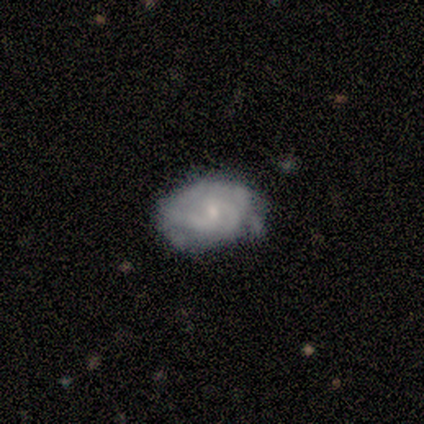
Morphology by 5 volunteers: A featured or disk galaxy (80%) with no bar (100%), tight (50%, tied with medium) spiral arms (100%) and a small central bulge (100%). Merging: none (80%).